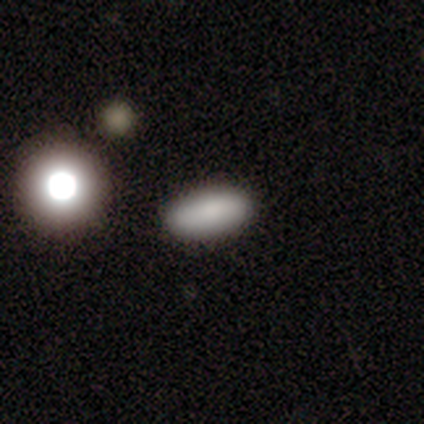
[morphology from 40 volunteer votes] Volunteers were most divided on "how rounded": in between: 65%, cigar-shaped: 26%, round: 9%. More confident: merging — none (89%); smooth or featured — smooth (85%).